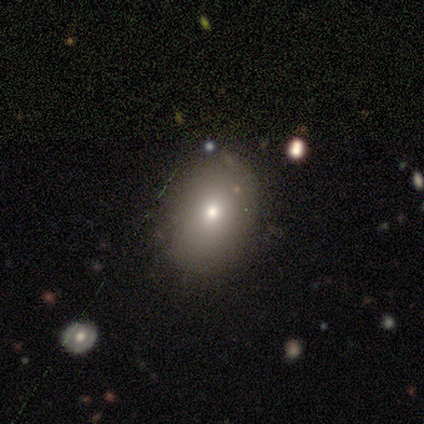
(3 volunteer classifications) A star or artifact, not a galaxy (100%).